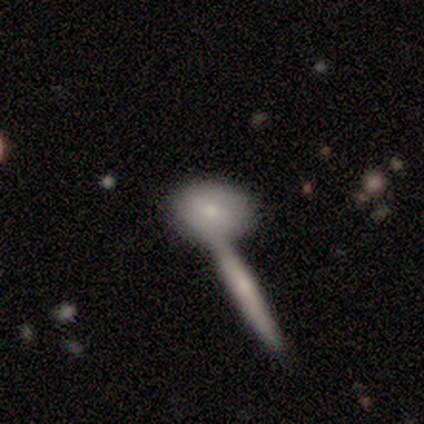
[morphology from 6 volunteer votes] Volunteers were most divided on "merging" (2-way tie): none: 50%, merger: 50%, minor disturbance: 0%, major disturbance: 0%. More confident: smooth or featured — smooth (83%); how rounded — in between (60%).